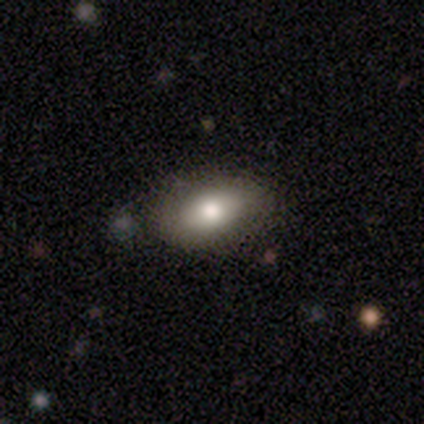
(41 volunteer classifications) Smooth or featured: smooth — 76% (featured or disk — 20%)
How rounded: in between — 90% (round — 10%)
Merging: none — 69% (minor disturbance — 8%)